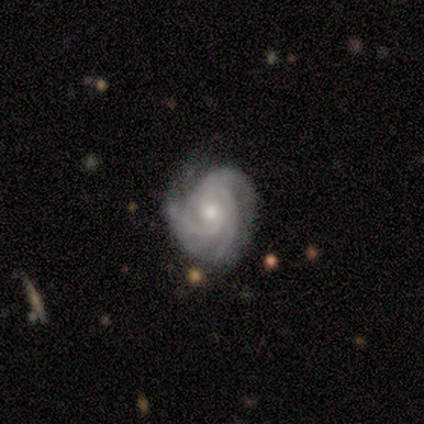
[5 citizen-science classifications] Smooth or featured?
  - featured or disk: 60% *
  - smooth: 40%
  - star or artifact: 0%
Edge-on disk?
  - no: 100% *
  - yes: 0%
Bar?
  - no: 67% *
  - strong: 33%
  - weak: 0%
Spiral arms?
  - yes: 100% *
  - no: 0%
Spiral winding?
  - tight: 67% *
  - medium: 33%
  - loose: 0%
Spiral arm count?
  - 3: 67% *
  - 4: 33%
  - 1: 0%
  - 2: 0%
  - more than 4: 0%
  - can't tell: 0%
Bulge size?
  - moderate: 67% *
  - small: 33%
  - dominant: 0%
  - large: 0%
  - none: 0%
Merging?
  - none: 100% *
  - minor disturbance: 0%
  - major disturbance: 0%
  - merger: 0%